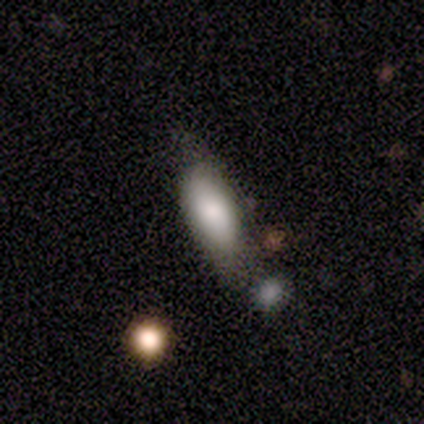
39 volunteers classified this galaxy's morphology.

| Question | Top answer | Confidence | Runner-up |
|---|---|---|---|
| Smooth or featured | smooth | 74% | featured or disk (18%) |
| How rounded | in between | 86% | cigar-shaped (10%) |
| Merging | none | 58% | minor disturbance (31%) |